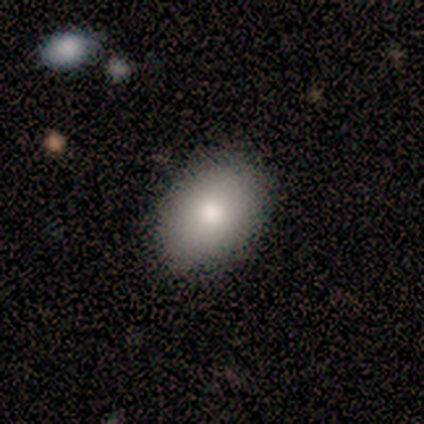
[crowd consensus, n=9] This is clearly a smooth galaxy (89%). How rounded: likely in between (75%). Merging: likely none (75%).